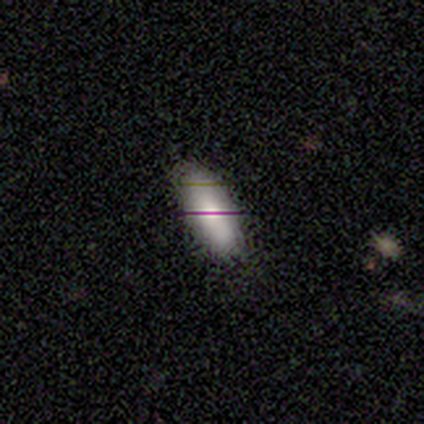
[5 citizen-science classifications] Smooth or featured?
  - smooth: 80% *
  - featured or disk: 20%
  - star or artifact: 0%
How rounded?
  - in between: 75% *
  - cigar-shaped: 25%
  - round: 0%
Merging?
  - none: 100% *
  - minor disturbance: 0%
  - major disturbance: 0%
  - merger: 0%